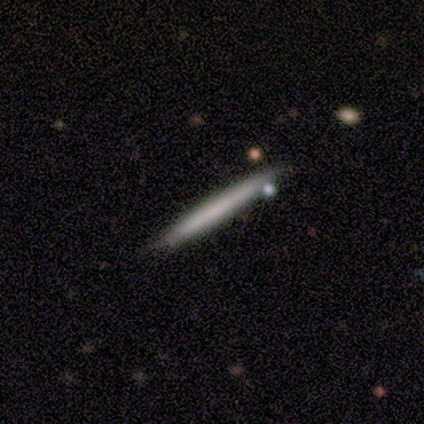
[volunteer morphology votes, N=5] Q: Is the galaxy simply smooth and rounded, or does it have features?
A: smooth — 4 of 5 (80%).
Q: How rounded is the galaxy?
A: cigar-shaped — 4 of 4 (100%).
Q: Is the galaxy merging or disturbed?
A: none — 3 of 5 (60%).